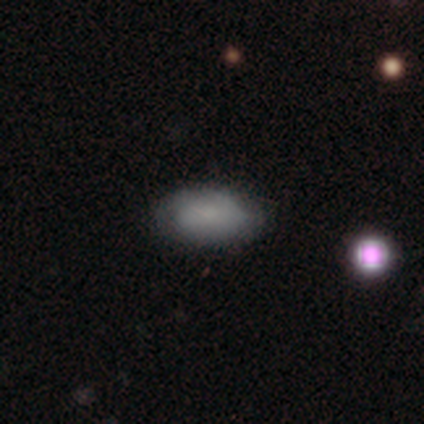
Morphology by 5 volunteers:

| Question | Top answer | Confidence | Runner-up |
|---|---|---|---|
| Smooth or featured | smooth | 60% | featured or disk (40%) |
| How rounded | in between | 100% | — |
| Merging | minor disturbance | 80% | none (20%) |